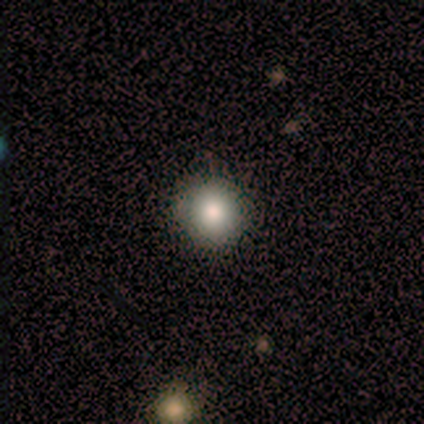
Smooth or featured?
  - smooth: 80% *
  - star or artifact: 20%
  - featured or disk: 0%
How rounded?
  - round: 75% *
  - in between: 25%
  - cigar-shaped: 0%
Merging?
  - none: 50% * (tied)
  - major disturbance: 50% * (tied)
  - minor disturbance: 0%
  - merger: 0%